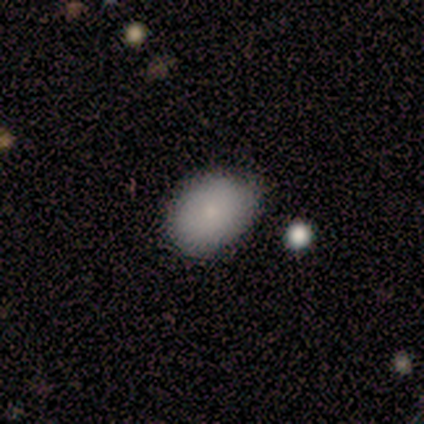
A smooth galaxy with no disk features (67%) that is in between round and cigar-shaped (100%).

Vote fractions:
- Smooth or featured? smooth: 67% / featured or disk: 33% / star or artifact: 0%
- How rounded? in between: 100% / round: 0% / cigar-shaped: 0%
- Merging? none: 100% / minor disturbance: 0% / major disturbance: 0% / merger: 0%